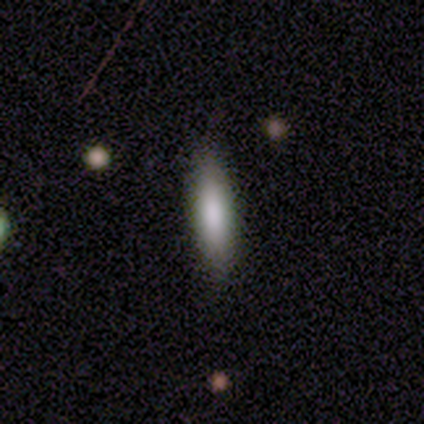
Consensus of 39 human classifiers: Morphology: type=smooth (62%); roundness=cigar-shaped (62%); merging=none (91%).